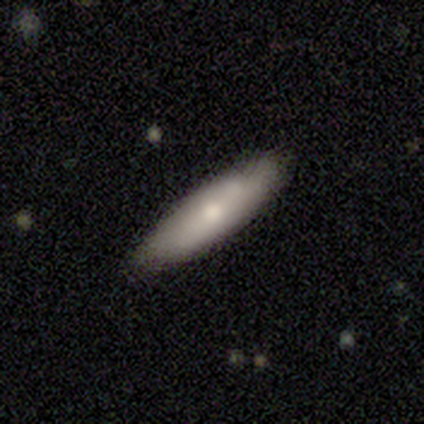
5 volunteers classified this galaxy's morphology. smooth-or-featured: featured or disk: 60% | smooth: 40% | star or artifact: 0%
  disk-edge-on: yes: 67% | no: 33%
    edge-on-bulge: none: 50% (tied) | rounded: 50% (tied) | boxy: 0%
  merging: none: 100% | minor disturbance: 0% | major disturbance: 0% | merger: 0%